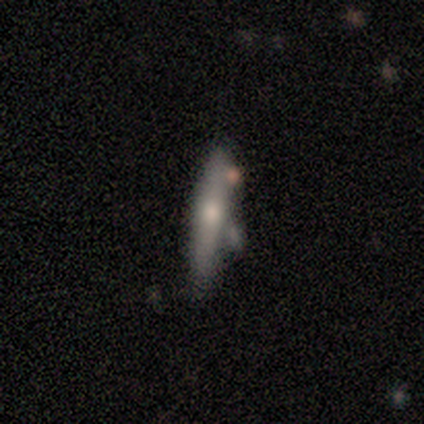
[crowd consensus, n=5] Smooth or featured?
  - featured or disk: 60% *
  - smooth: 40%
  - star or artifact: 0%
Edge-on disk?
  - yes: 67% *
  - no: 33%
Edge-on bulge?
  - rounded: 100% *
  - boxy: 0%
  - none: 0%
Merging?
  - none: 40% * (tied)
  - merger: 40% * (tied)
  - major disturbance: 20%
  - minor disturbance: 0%